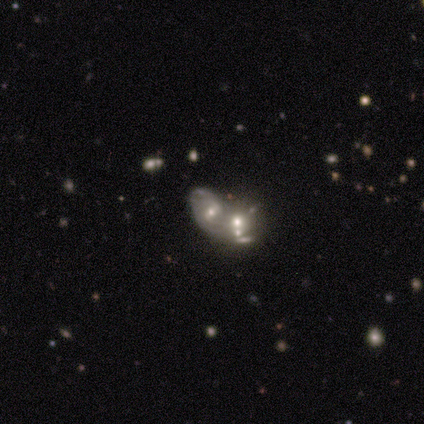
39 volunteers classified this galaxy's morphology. Overall: featured or disk (95%). Edge-on disk: no (100%). Bar: no (49%; weak 30%). Spiral arms: yes (59%; no 41%). Spiral arm count: 2 (55%; 1 23%). Spiral winding: medium (45%; loose 41%). Bulge size: moderate (46%; small 43%). Merging: merger (97%).